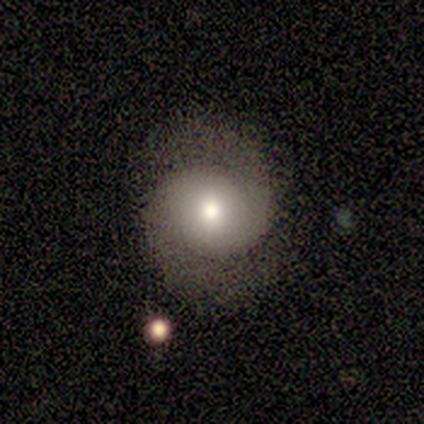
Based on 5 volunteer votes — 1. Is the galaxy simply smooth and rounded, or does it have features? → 40% smooth (tied), 40% featured or disk (tied), 20% star or artifact.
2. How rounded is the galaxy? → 100% round, 0% in between, 0% cigar-shaped.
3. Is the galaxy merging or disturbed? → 75% none, 25% minor disturbance, 0% major disturbance, 0% merger.